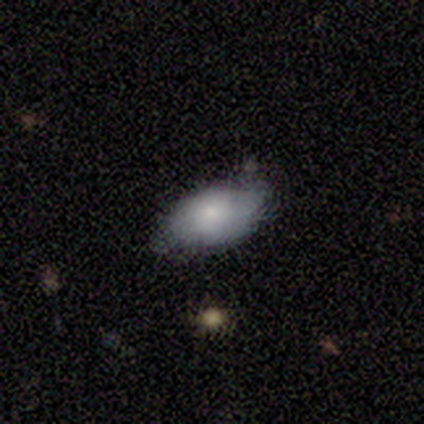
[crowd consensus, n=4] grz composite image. It shows a smooth galaxy with no disk features (100%) that is in between round and cigar-shaped (100%). Merging: none (75%).